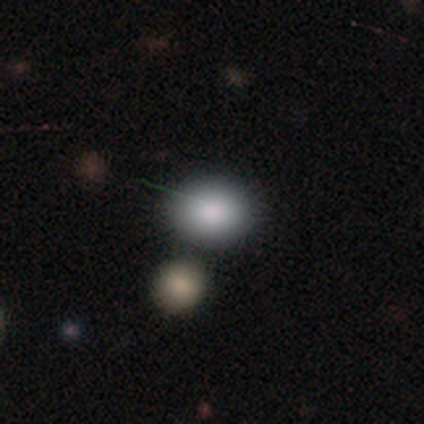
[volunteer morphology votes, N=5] smooth-or-featured: smooth: 100% | featured or disk: 0% | star or artifact: 0%
  how-rounded: round: 40% (tied) | in between: 40% (tied) | cigar-shaped: 20%
  merging: none: 80% | major disturbance: 20% | minor disturbance: 0% | merger: 0%